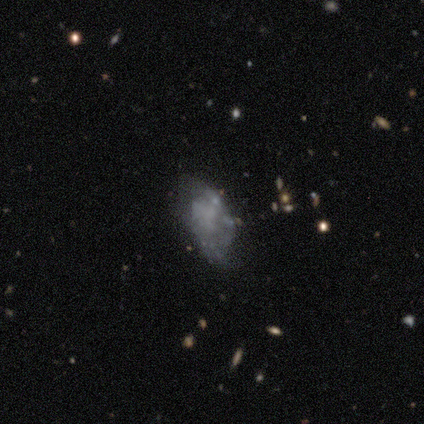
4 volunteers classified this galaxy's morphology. Volunteers were most divided on "merging": none: 50%, minor disturbance: 25%, major disturbance: 25%, merger: 0%. More confident: smooth or featured — featured or disk (100%); edge-on disk — no (100%); bar — no (100%); spiral arms — no (100%); bulge size — none (100%).